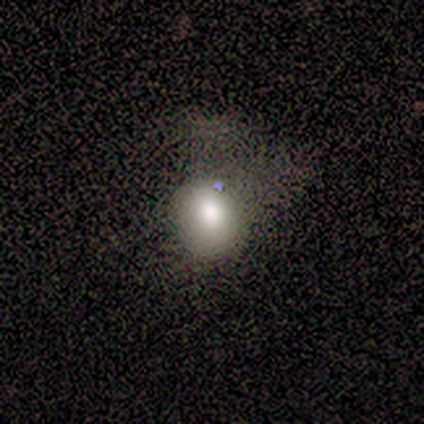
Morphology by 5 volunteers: type=smooth (60%); roundness=in between (67%); merging=major disturbance (67%).